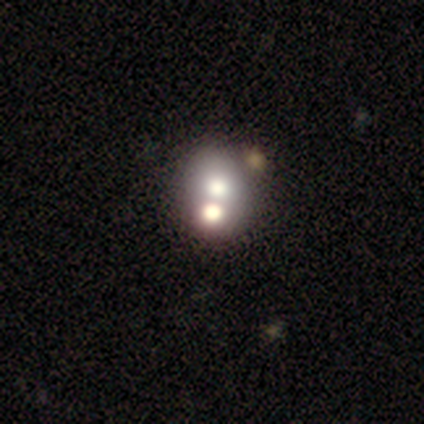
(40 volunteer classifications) Smooth or featured?
  - smooth: 52% *
  - featured or disk: 35%
  - star or artifact: 12%
How rounded?
  - round: 71% *
  - in between: 29%
  - cigar-shaped: 0%
Merging?
  - merger: 49% *
  - none: 37%
  - minor disturbance: 3%
  - major disturbance: 0%